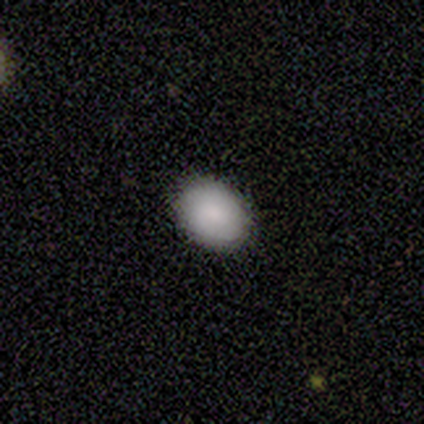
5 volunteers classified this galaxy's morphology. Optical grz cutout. It shows a smooth galaxy with no disk features (80%) that is in between round and cigar-shaped (75%). Merging: none (100%).